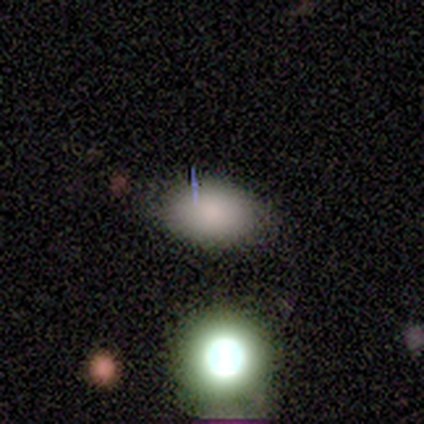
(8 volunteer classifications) Smooth or featured? 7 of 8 (88%) said smooth. How rounded? 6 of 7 (86%) said in between. Merging? 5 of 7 (71%) said none.